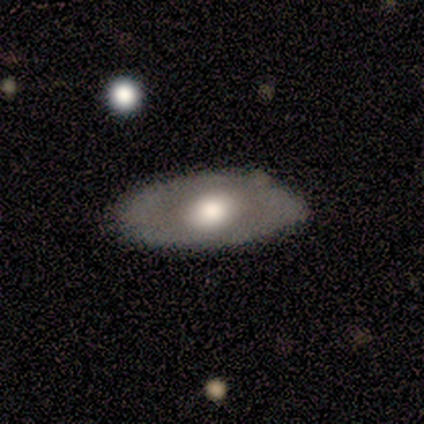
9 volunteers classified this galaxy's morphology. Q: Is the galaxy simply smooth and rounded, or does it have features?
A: featured or disk — 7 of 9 (78%).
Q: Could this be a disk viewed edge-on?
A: no — 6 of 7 (86%).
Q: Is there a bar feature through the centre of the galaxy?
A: no — 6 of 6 (100%).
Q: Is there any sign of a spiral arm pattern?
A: no — 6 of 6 (100%).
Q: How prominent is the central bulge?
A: large — 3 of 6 (50%, tied with moderate).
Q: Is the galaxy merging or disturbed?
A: none — 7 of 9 (78%).